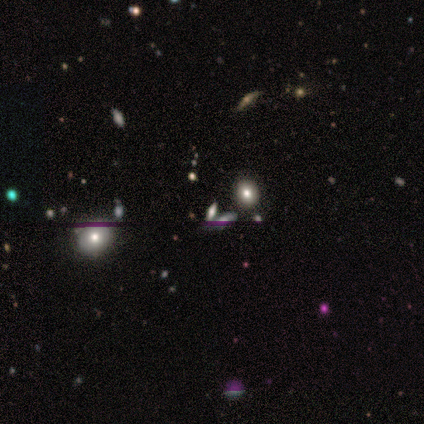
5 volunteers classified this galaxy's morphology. Smooth or featured? star or artifact (80%)